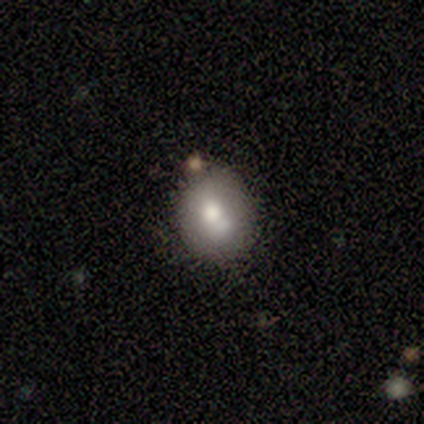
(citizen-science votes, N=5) This is clearly a smooth galaxy (80%). How rounded: likely in between (75%). Merging: likely none (60%).